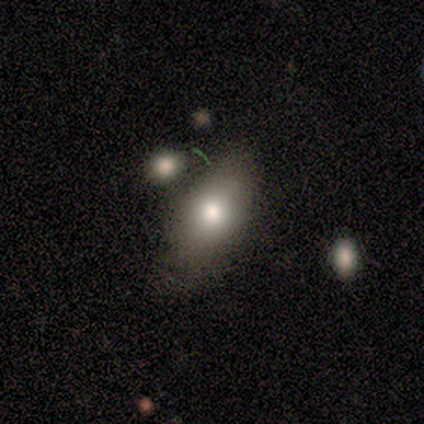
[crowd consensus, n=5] Smooth or featured: smooth — 60% (star or artifact — 40%)
How rounded: in between — 67% (cigar-shaped — 33%)
Merging: none — 67% (minor disturbance — 33%)